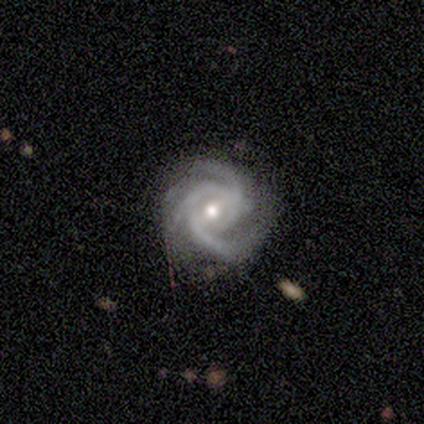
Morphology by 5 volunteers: Q: Smooth or featured?
A: featured or disk (100%)
Q: Edge-on disk?
A: no (100%)
Q: Bar?
A: weak (60%); runner-up: strong (20%)
Q: Spiral arms?
A: yes (100%)
Q: Spiral winding?
A: tight (60%); runner-up: medium (40%)
Q: Spiral arm count?
A: 3 (80%); runner-up: 4 (20%)
Q: Bulge size?
A: moderate (80%); runner-up: small (20%)
Q: Merging?
A: none (80%); runner-up: minor disturbance (20%)